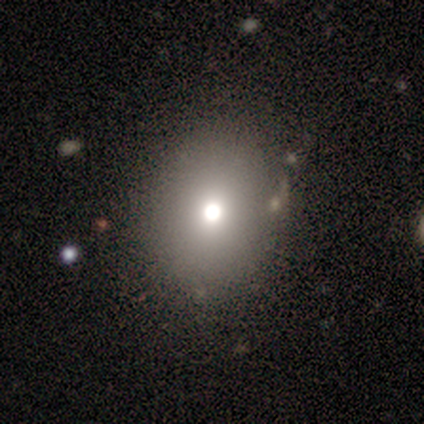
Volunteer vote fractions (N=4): Smooth or featured? 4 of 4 (100%) said smooth. How rounded? 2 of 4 (50%, tied with in between) said round. Merging? 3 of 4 (75%) said none.